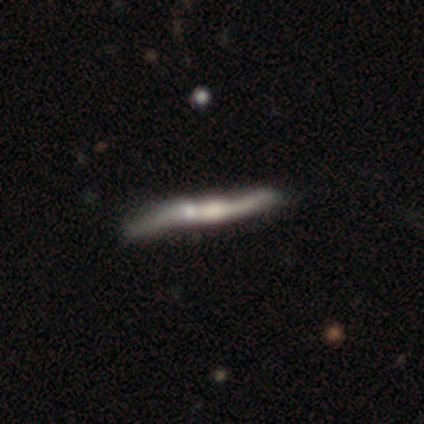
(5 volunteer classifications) featured or disk 60%, smooth 20%, star or artifact 20%. Down the decision tree: edge-on disk — yes (67%); edge-on bulge — rounded (100%); merging — major disturbance (50%).